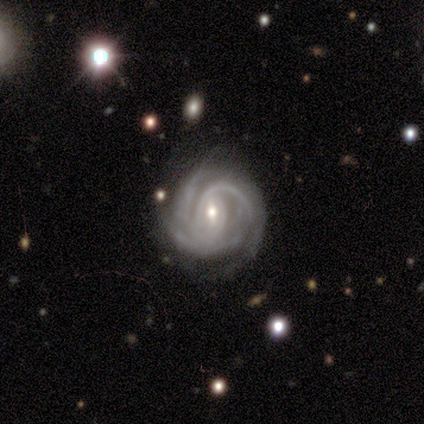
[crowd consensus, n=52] Q: Smooth or featured?
A: featured or disk (90%); runner-up: smooth (6%)
Q: Edge-on disk?
A: no (98%); runner-up: yes (2%)
Q: Bar?
A: weak (72%); runner-up: no (15%)
Q: Spiral arms?
A: yes (98%); runner-up: no (2%)
Q: Spiral winding?
A: tight (62%); runner-up: medium (31%)
Q: Spiral arm count?
A: 3 (44%); runner-up: 2 (24%)
Q: Bulge size?
A: small (52%); runner-up: moderate (43%)
Q: Merging?
A: none (60%); runner-up: minor disturbance (28%)